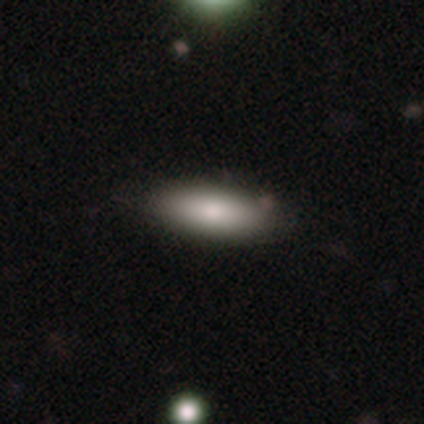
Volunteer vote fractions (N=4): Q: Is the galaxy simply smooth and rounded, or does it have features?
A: smooth — 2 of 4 (50%, tied with featured or disk).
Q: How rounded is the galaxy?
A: in between — 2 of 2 (100%).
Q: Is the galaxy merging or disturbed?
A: none — 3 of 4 (75%).